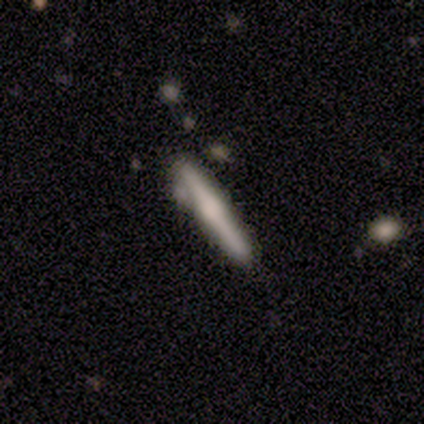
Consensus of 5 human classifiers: Overall: smooth (60%; featured or disk 40%). How rounded: cigar-shaped (100%). Merging: none (80%).